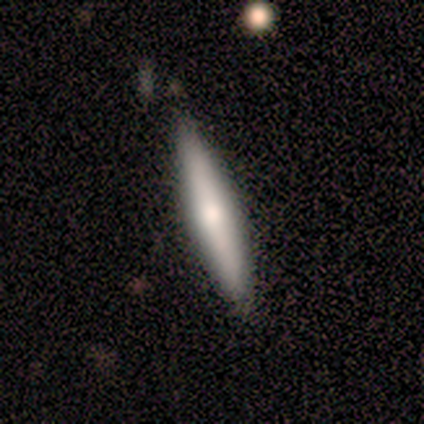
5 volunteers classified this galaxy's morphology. Volunteers were most divided on "smooth or featured": smooth: 80%, featured or disk: 20%, star or artifact: 0%. More confident: how rounded — cigar-shaped (100%); merging — none (100%).